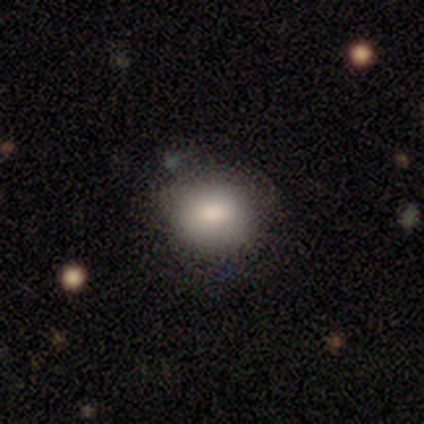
Volunteers were most divided on "merging": none: 69%, minor disturbance: 26%, merger: 6%, major disturbance: 0%. More confident: smooth or featured — smooth (74%); how rounded — round (72%).